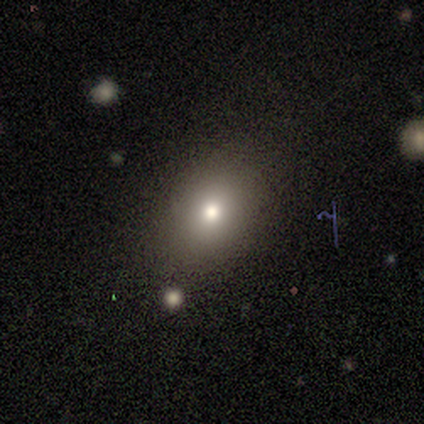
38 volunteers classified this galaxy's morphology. Overall: smooth (79%). How rounded: in between (60%; round 40%). Merging: none (79%).